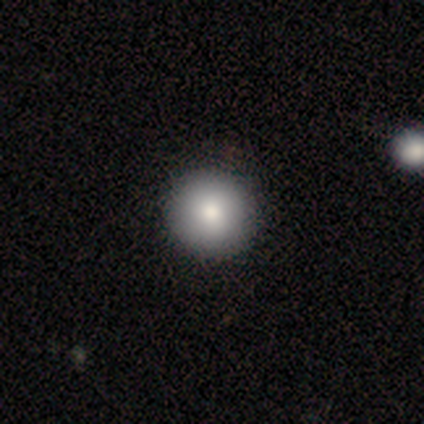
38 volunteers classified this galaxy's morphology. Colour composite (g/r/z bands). It shows a smooth galaxy with no disk features (92%) that is round (100%). Merging: none (67%).